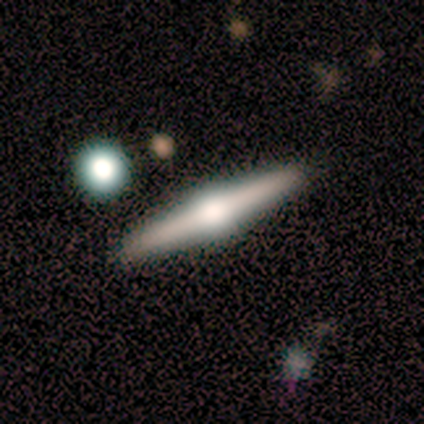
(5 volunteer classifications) Consensus on every question: smooth or featured — featured or disk (100%); edge-on disk — yes (100%); edge-on bulge — rounded (100%); merging — none (100%).